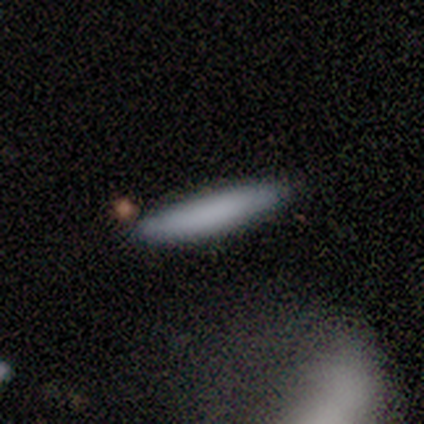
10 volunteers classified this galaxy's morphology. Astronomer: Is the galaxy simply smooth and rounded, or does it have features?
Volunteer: smooth — 100%.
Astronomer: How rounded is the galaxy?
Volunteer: cigar-shaped — 80%.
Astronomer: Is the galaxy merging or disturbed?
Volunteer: none — 80%.